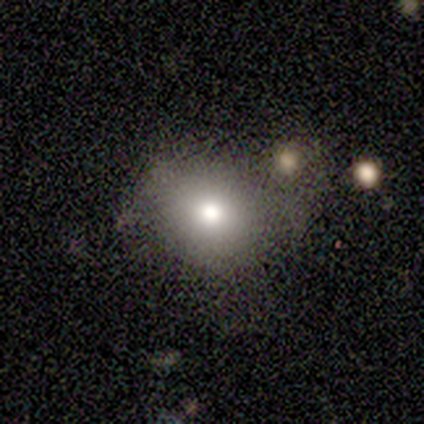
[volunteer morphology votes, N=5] smooth 60%, featured or disk 20%, star or artifact 20%. Down the decision tree: how rounded — round (100%); merging — none (75%).